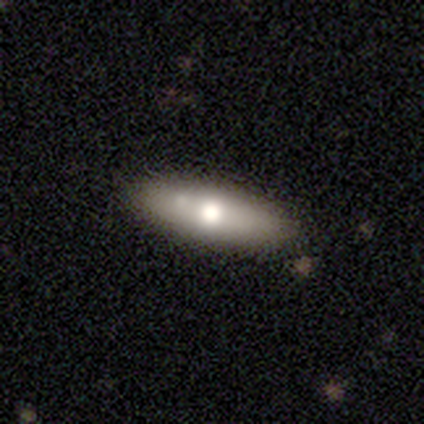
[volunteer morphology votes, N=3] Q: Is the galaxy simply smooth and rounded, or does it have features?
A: smooth — 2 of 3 (67%).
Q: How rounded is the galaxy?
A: in between — 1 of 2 (50%, tied with cigar-shaped).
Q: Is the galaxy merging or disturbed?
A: none — 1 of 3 (33%, tied with minor disturbance and major disturbance).